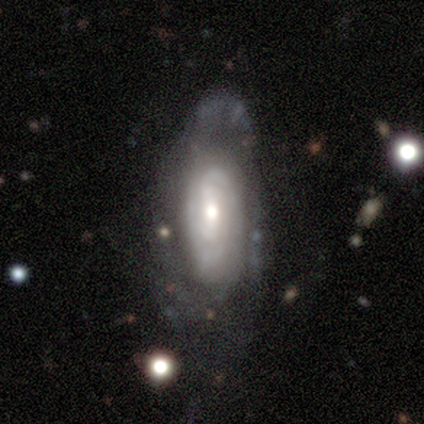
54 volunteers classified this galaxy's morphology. featured or disk 91%, smooth 6%, star or artifact 4%. Down the decision tree: edge-on disk — no (98%); bar — no (44%); spiral arms — yes (94%); spiral arm count — can't tell (42%); spiral winding — tight (53%); bulge size — moderate (62%); merging — none (58%).